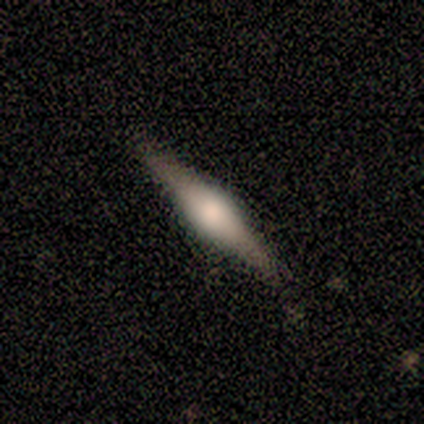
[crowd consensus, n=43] featured or disk 79%, smooth 19%, star or artifact 2%. Down the decision tree: edge-on disk — yes (100%); edge-on bulge — rounded (85%); merging — none (88%).